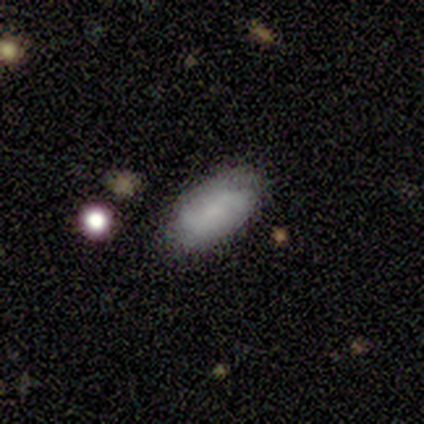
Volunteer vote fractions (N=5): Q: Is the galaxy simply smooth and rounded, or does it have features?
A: smooth — 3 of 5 (60%).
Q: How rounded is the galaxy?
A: in between — 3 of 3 (100%).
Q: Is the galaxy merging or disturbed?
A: none — 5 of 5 (100%).